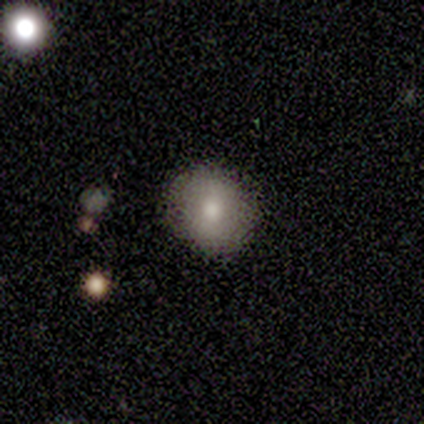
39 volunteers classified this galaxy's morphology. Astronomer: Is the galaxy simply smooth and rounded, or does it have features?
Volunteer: smooth — 69%.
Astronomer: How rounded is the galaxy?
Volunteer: round — 85%.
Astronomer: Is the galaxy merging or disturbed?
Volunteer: none — 92%.